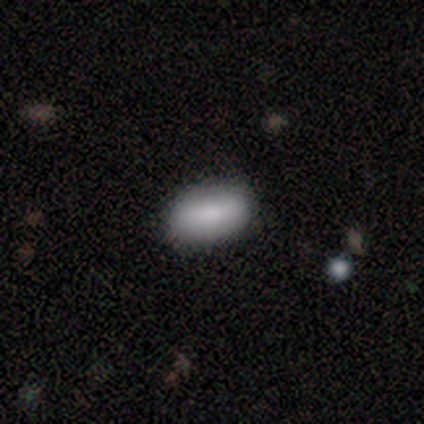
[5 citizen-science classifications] This appears to be a smooth galaxy with no disk features (100%) that is in between round and cigar-shaped (100%). Merging: none (100%).